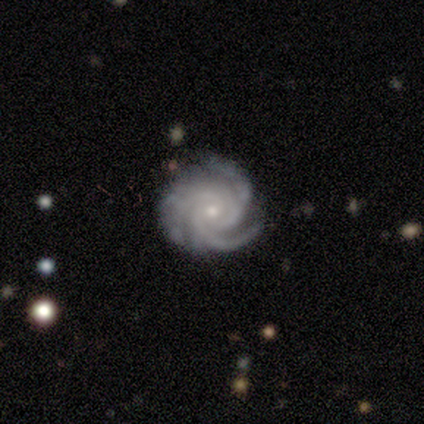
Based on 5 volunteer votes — Morphology: type=featured or disk (100%); edge-on=no (80%); bar=no (100%); spiral arms=yes (100%); winding=tight (100%); arm count=3 (75%); bulge=small (100%); merging=none (100%).